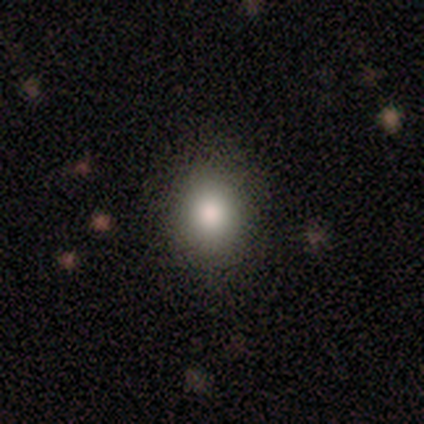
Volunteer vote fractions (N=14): A smooth galaxy with no disk features (93%) that is round (62%). Merging: none (79%).